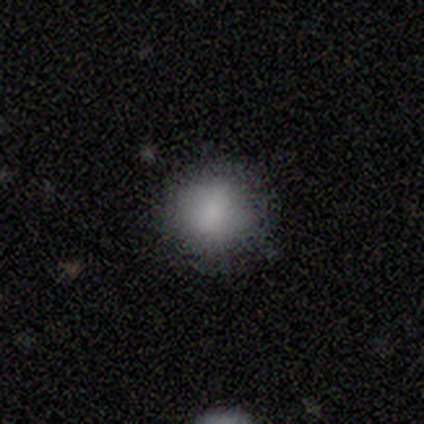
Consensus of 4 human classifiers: smooth_or_featured: smooth (p=0.75) [alt: featured or disk p=0.25]
how_rounded: round (p=0.67) [alt: in between p=0.33]
merging: none (p=0.75) [alt: major disturbance p=0.25]